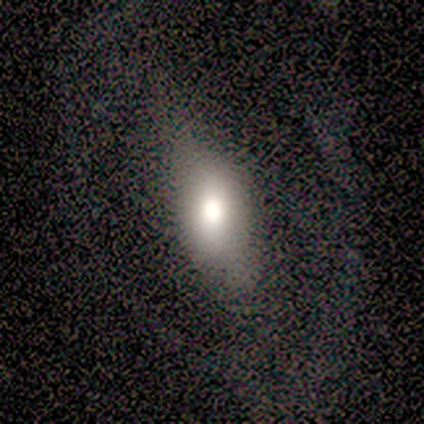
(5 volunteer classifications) Overall: featured or disk (60%; smooth 40%). Edge-on disk: yes (67%; no 33%). Edge-on bulge: rounded (100%). Merging: none (80%).